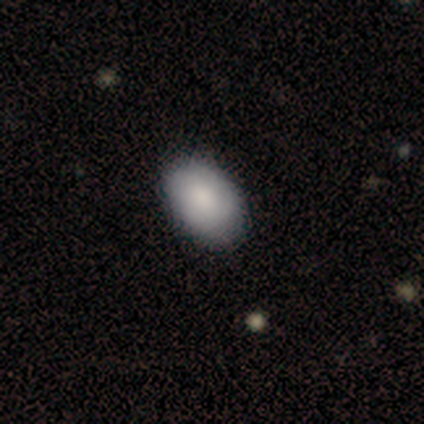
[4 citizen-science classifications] smooth 75%, featured or disk 25%, star or artifact 0%. Down the decision tree: how rounded — in between (100%); merging — none (100%).